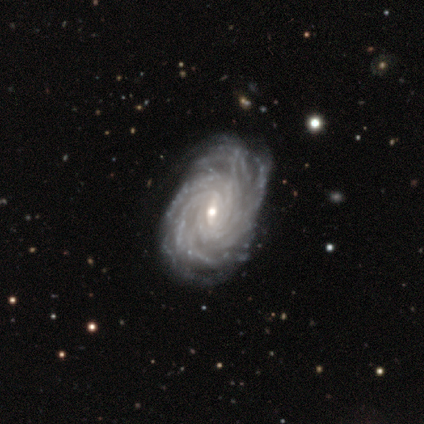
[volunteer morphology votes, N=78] Q: Smooth or featured?
A: featured or disk (95%); runner-up: smooth (3%)
Q: Edge-on disk?
A: no (99%); runner-up: yes (1%)
Q: Bar?
A: weak (56%); runner-up: no (23%)
Q: Spiral arms?
A: yes (100%)
Q: Spiral winding?
A: tight (82%); runner-up: medium (15%)
Q: Spiral arm count?
A: more than 4 (59%); runner-up: can't tell (18%)
Q: Bulge size?
A: small (52%); runner-up: moderate (44%)
Q: Merging?
A: none (38%); runner-up: minor disturbance (21%)